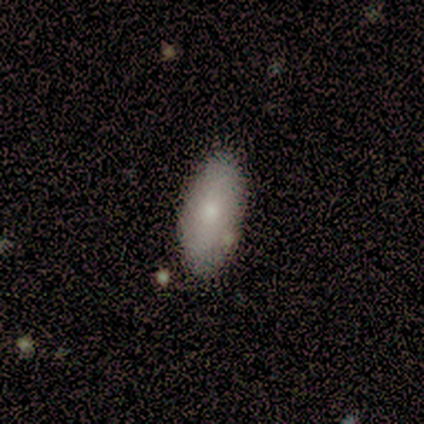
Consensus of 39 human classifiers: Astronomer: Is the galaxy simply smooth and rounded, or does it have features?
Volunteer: smooth — 69%.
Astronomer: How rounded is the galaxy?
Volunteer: in between — 93%.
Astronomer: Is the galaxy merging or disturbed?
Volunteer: none — 59%.